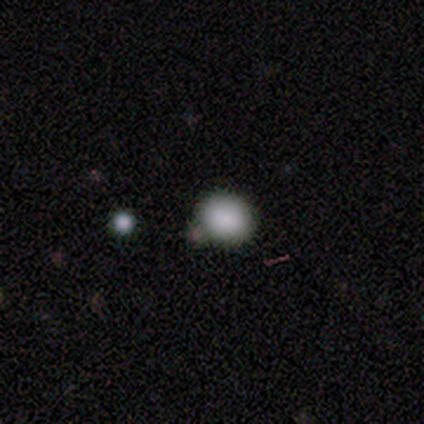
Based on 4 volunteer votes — smooth-or-featured: smooth: 100% | featured or disk: 0% | star or artifact: 0%
  how-rounded: round: 100% | in between: 0% | cigar-shaped: 0%
  merging: none: 75% | merger: 25% | minor disturbance: 0% | major disturbance: 0%